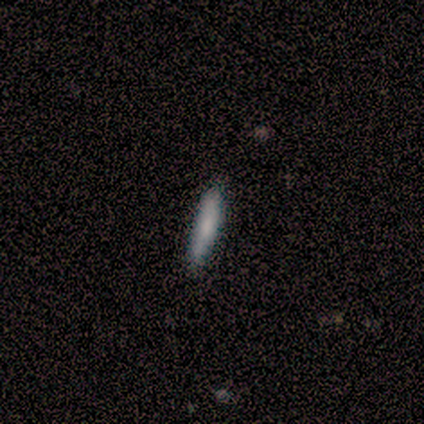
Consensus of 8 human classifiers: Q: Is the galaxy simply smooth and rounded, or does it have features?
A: smooth — 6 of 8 (75%).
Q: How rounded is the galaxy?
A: cigar-shaped — 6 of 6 (100%).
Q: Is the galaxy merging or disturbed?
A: none — 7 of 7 (100%).